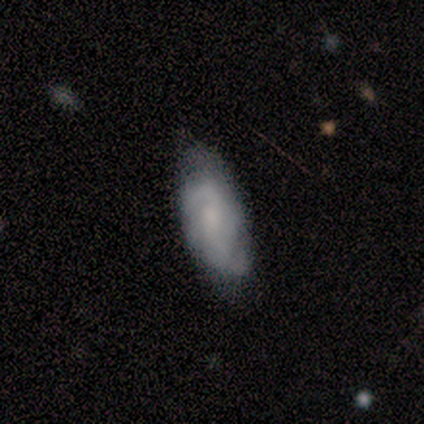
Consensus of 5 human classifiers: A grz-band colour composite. It shows a smooth galaxy with no disk features (60%) that is in between round and cigar-shaped (67%). Merging: none (60%).